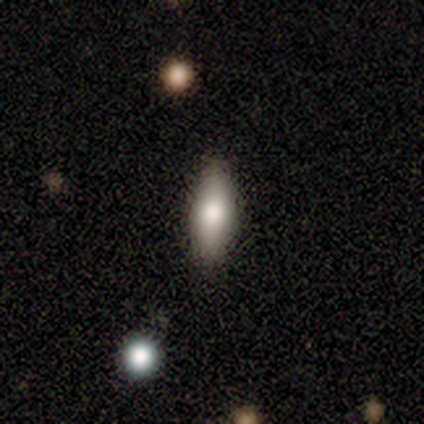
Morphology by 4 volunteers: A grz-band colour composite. It shows a smooth galaxy with no disk features (100%) that is in between round and cigar-shaped (75%). Merging: none (100%).